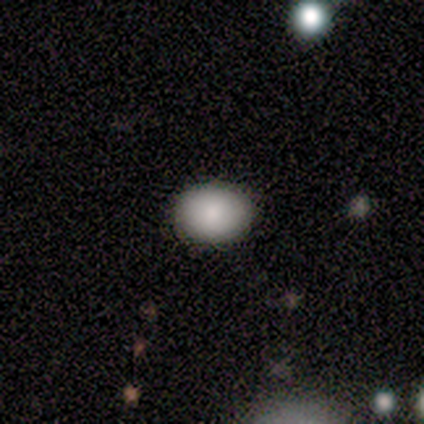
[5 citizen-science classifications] Volunteers were most divided on "how rounded": in between: 60%, round: 40%, cigar-shaped: 0%. More confident: smooth or featured — smooth (100%); merging — none (100%).